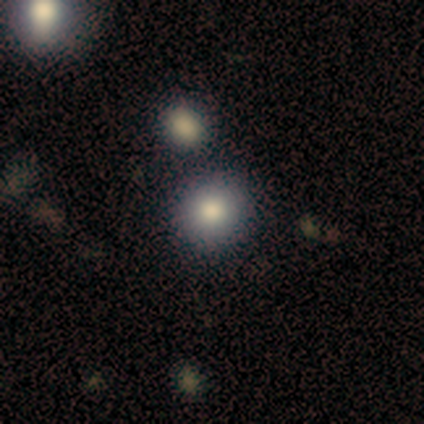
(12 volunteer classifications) This appears to be a smooth galaxy with no disk features (83%) that is round (90%). Merging: none (100%).